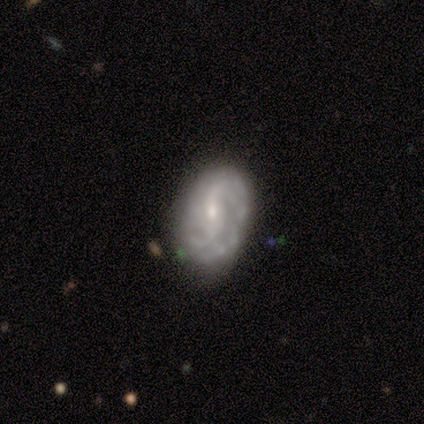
A featured or disk galaxy (60%) with no bar (67%), 3 (67%) tight (67%) spiral arms (100%) and a small central bulge (100%). Merging: none (60%).